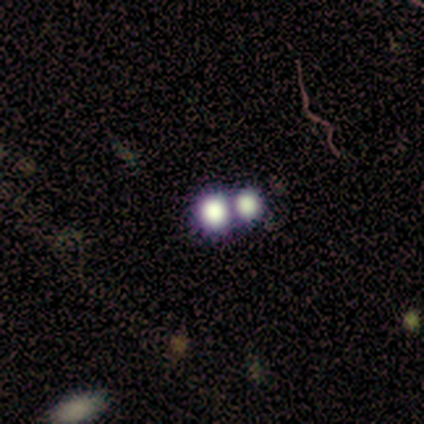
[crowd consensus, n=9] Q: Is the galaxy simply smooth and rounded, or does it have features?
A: smooth — 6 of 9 (67%).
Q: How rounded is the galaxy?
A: round — 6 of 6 (100%).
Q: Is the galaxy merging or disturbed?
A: merger — 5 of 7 (71%).